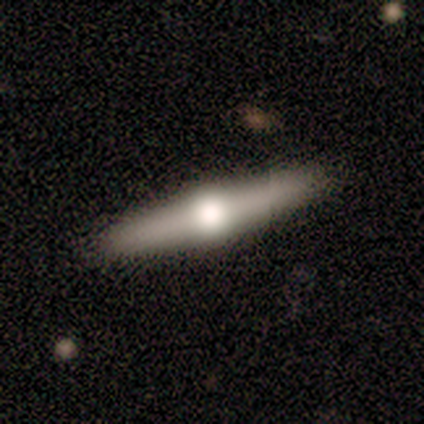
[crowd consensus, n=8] smooth_or_featured: featured or disk (p=0.75) [alt: smooth p=0.25]
disk_edge_on: yes (p=1.00)
edge_on_bulge: rounded (p=1.00)
merging: none (p=0.88) [alt: minor disturbance p=0.12]